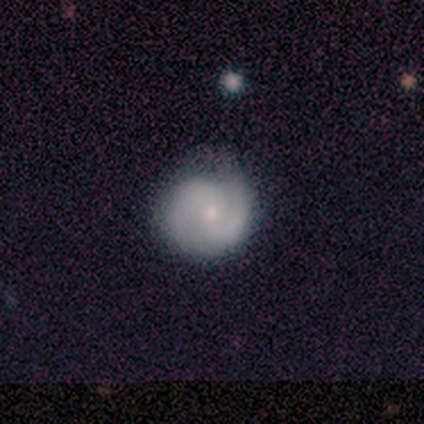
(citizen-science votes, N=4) This appears to be a smooth galaxy with no disk features (50%, tied with featured or disk) that is round (100%). Merging: none (75%).